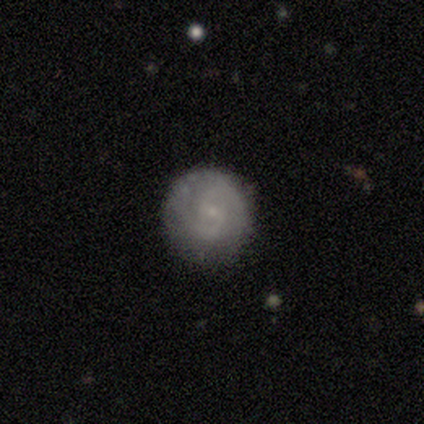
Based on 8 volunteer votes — This appears to be a featured or disk galaxy (50%) with no bar (75%), 2 (100%) tight (67%) spiral arms (75%) and a small central bulge (100%). Merging: none (67%).